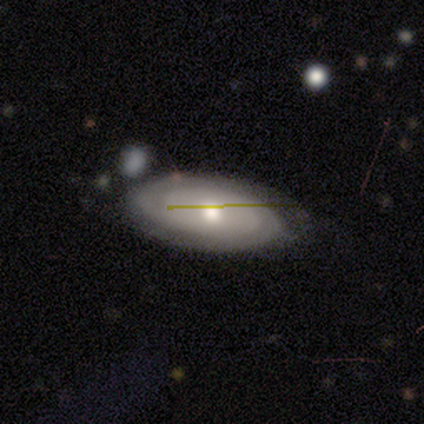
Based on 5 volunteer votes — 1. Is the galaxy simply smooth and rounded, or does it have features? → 80% featured or disk, 20% smooth, 0% star or artifact.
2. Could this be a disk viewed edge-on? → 100% no, 0% yes.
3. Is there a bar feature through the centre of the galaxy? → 75% no, 25% strong, 0% weak.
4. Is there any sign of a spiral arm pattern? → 50% yes (tied), 50% no (tied).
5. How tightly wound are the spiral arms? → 100% tight, 0% medium, 0% loose.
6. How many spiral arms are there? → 50% 2 (tied), 50% can't tell (tied), 0% 1, 0% 3, 0% 4, 0% more than 4.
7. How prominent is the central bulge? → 100% moderate, 0% dominant, 0% large, 0% small, 0% none.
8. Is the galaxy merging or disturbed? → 100% none, 0% minor disturbance, 0% major disturbance, 0% merger.